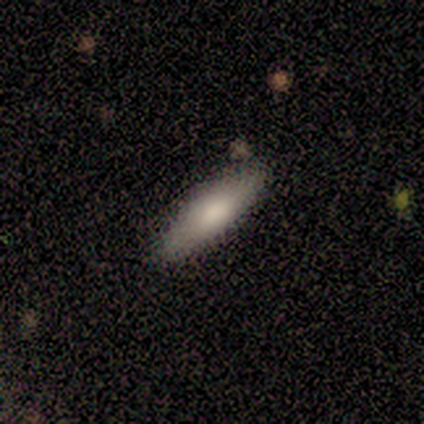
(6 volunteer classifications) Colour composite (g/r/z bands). It shows a smooth galaxy with no disk features (67%) that is in between round and cigar-shaped (50%, tied with cigar-shaped). Merging: none (100%).